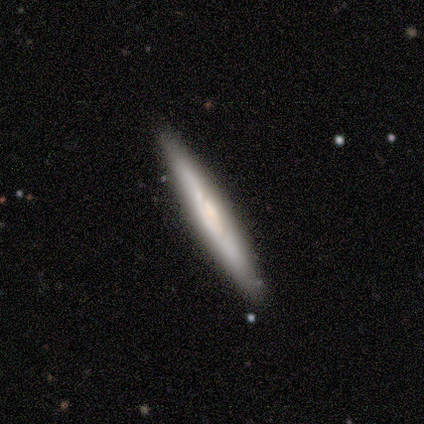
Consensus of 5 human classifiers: featured or disk 60%, smooth 40%, star or artifact 0%. Down the decision tree: edge-on disk — yes (100%); edge-on bulge — boxy (67%); merging — none (100%).